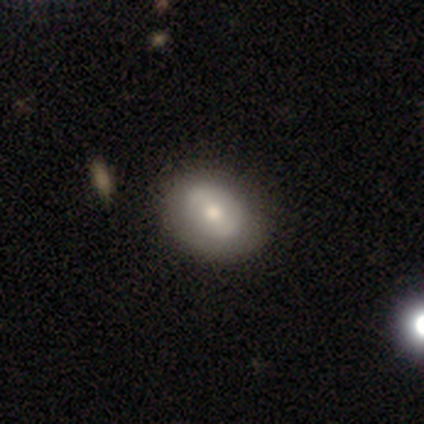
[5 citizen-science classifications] Smooth or featured? 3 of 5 (60%) said featured or disk. Edge-on disk? 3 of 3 (100%) said no. Bar? 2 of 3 (67%) said weak. Spiral arms? 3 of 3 (100%) said no. Bulge size? 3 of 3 (100%) said moderate. Merging? 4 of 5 (80%) said none.